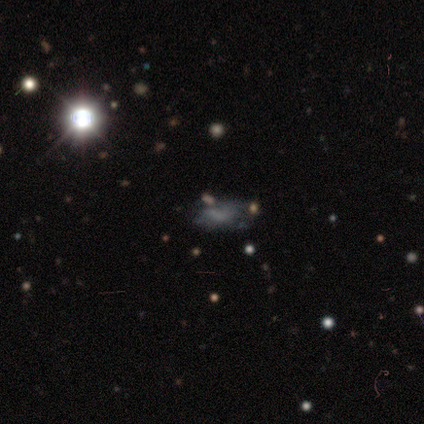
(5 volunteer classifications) smooth_or_featured: featured or disk (p=0.40) [tied with: star or artifact p=0.40]
disk_edge_on: no (p=1.00)
bar: weak (p=0.50) [tied with: no p=0.50]
has_spiral_arms: yes (p=0.50) [tied with: no p=0.50]
spiral_winding: loose (p=1.00)
spiral_arm_count: can't tell (p=1.00)
bulge_size: small (p=0.50) [tied with: none p=0.50]
merging: minor disturbance (p=0.67) [alt: merger p=0.33]